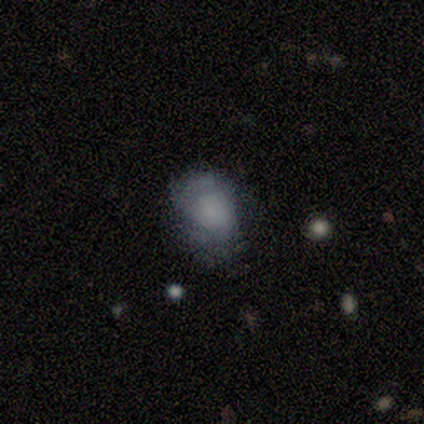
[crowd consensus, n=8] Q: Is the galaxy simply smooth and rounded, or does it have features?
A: smooth — 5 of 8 (62%).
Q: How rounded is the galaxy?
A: round — 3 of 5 (60%).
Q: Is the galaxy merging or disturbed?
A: none — 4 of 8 (50%, tied with minor disturbance).